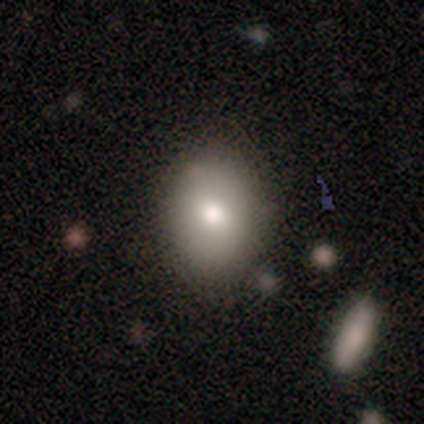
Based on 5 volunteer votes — Overall: smooth (80%). How rounded: round (50%, tied with in between). Merging: none (80%).